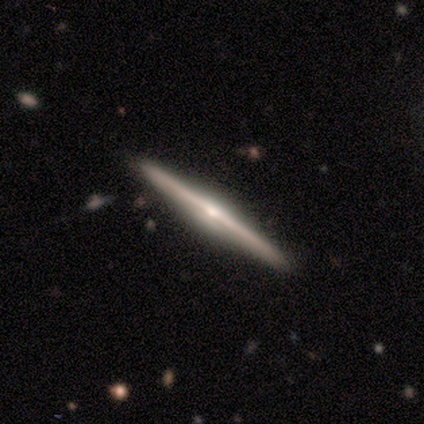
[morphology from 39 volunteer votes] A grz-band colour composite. It shows a featured or disk galaxy (82%) viewed edge-on (97%) with a rounded central bulge (90%). Merging: none (95%).